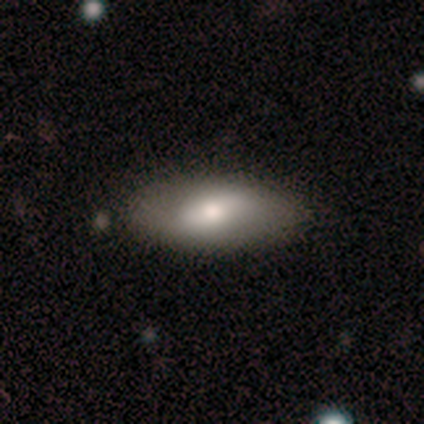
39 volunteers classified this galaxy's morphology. type=smooth (67%); roundness=in between (77%); merging=none (83%).